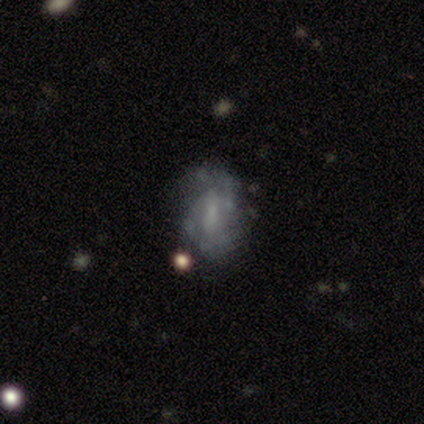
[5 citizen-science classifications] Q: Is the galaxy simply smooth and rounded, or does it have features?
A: featured or disk — 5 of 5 (100%).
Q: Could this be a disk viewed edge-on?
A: no — 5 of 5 (100%).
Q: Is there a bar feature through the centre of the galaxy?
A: weak — 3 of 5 (60%).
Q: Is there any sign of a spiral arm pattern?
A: yes — 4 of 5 (80%).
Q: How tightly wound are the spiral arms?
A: medium — 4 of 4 (100%).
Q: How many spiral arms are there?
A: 2 — 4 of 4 (100%).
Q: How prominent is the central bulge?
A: moderate — 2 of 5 (40%, tied with none).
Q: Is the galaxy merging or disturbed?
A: none — 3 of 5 (60%).